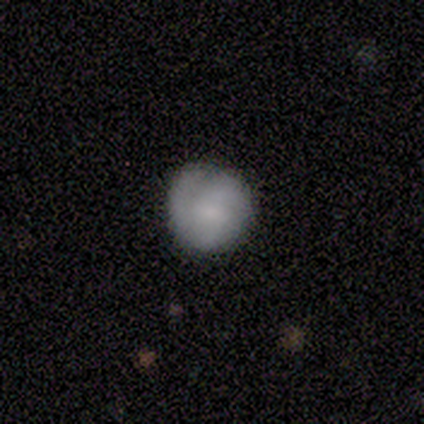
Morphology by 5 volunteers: smooth 80%, featured or disk 20%, star or artifact 0%. Down the decision tree: how rounded — round (100%); merging — none (80%).